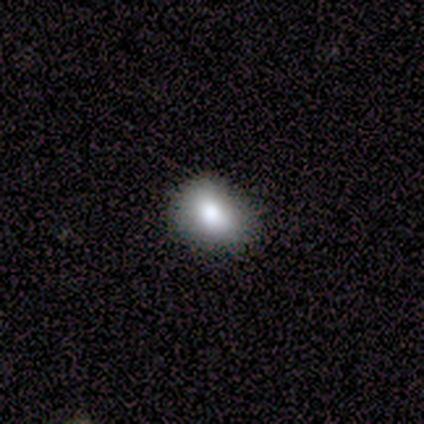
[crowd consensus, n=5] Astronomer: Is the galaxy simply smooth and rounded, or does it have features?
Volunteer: smooth — 80%.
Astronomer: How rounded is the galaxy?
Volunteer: round — 75%.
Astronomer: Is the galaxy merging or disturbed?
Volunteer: none — 80%.